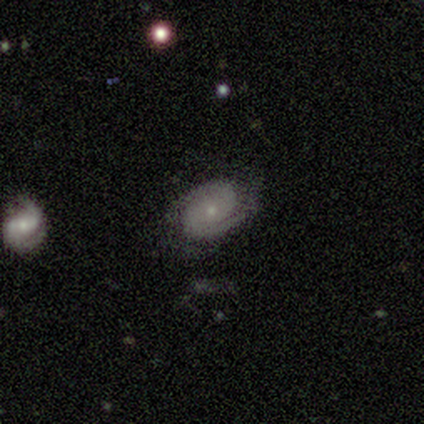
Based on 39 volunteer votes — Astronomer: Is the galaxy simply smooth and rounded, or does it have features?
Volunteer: featured or disk — 85%.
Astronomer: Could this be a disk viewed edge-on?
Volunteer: no — 97%.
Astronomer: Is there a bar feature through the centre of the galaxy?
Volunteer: no — 72%.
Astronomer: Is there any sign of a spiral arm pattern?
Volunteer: yes — 91%.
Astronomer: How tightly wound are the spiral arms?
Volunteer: tight — 66%.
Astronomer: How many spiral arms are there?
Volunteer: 2 — 90%.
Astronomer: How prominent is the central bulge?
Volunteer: small — 62%.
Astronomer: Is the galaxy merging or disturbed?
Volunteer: none — 65%.